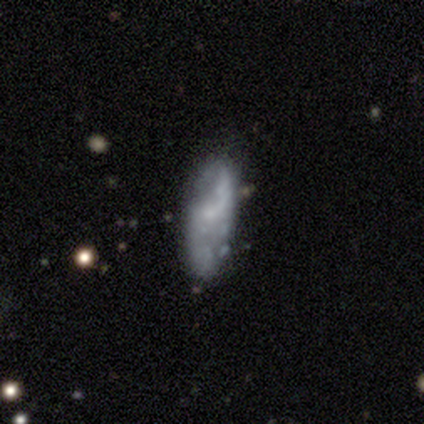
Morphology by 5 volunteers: Smooth or featured: smooth — 100%
How rounded: in between — 80% (cigar-shaped — 20%)
Merging: none — 80% (minor disturbance — 20%)